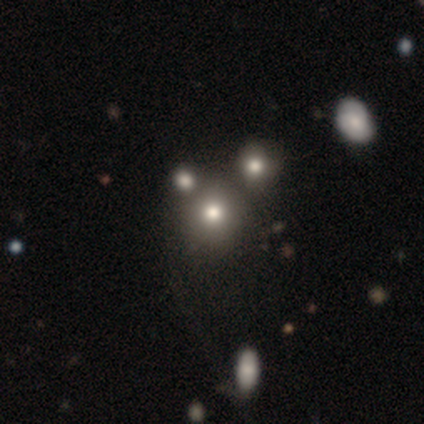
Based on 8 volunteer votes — This is likely a smooth galaxy (62%). How rounded: clearly round (100%). Merging: likely none (67%).